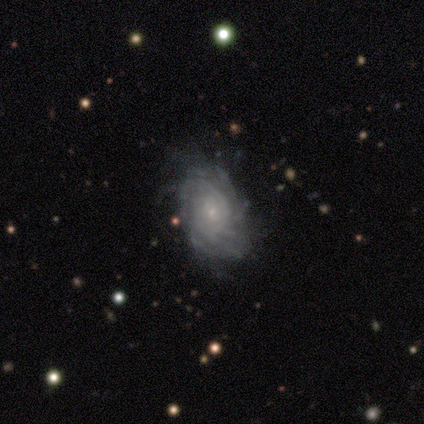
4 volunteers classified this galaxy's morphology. A featured or disk galaxy (100%) with no bar (75%), tight (50%) spiral arms (100%) and a small central bulge (75%).

Vote fractions:
- Smooth or featured? featured or disk: 100% / smooth: 0% / star or artifact: 0%
- Edge-on disk? no: 100% / yes: 0%
- Bar? no: 75% / weak: 25% / strong: 0%
- Spiral arms? yes: 100% / no: 0%
- Spiral winding? tight: 50% / medium: 25% / loose: 25%
- Spiral arm count? can't tell: 75% / 4: 25% / 1: 0% / 2: 0% / 3: 0% / more than 4: 0%
- Bulge size? small: 75% / moderate: 25% / dominant: 0% / large: 0% / none: 0%
- Merging? none: 75% / minor disturbance: 25% / major disturbance: 0% / merger: 0%